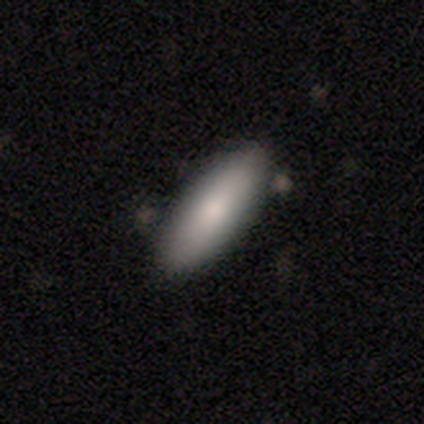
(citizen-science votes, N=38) This is clearly a smooth galaxy (82%). How rounded: possibly in between (58%). Merging: clearly none (92%).